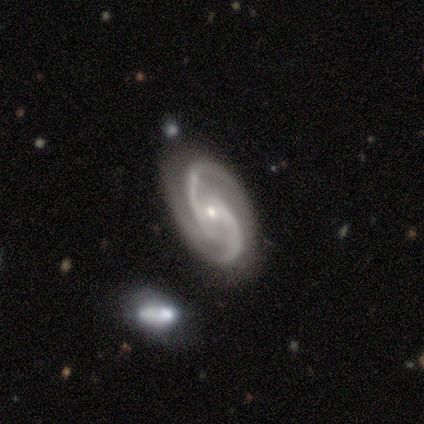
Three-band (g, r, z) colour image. It shows a featured or disk galaxy (100%) with a weak bar (57%), 2 (100%) medium (57%) spiral arms (100%) and a small central bulge (100%). Merging: none (100%).